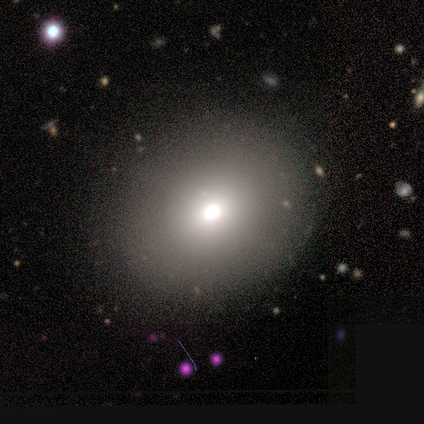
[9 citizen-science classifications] Volunteers were most divided on "how rounded": round: 71%, in between: 29%, cigar-shaped: 0%. More confident: merging — none (89%); smooth or featured — smooth (78%).